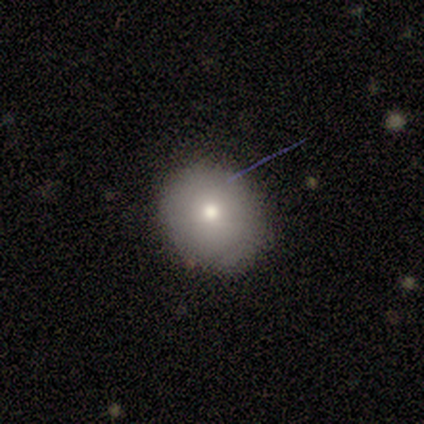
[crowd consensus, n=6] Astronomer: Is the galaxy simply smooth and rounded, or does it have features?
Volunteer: smooth — 100%.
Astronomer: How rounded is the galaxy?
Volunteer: round — 83%.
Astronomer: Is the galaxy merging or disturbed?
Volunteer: none — 83%.